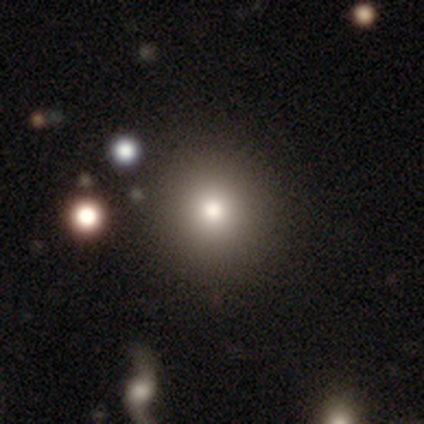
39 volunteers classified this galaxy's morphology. type=smooth (72%); roundness=round (93%); merging=none (97%).